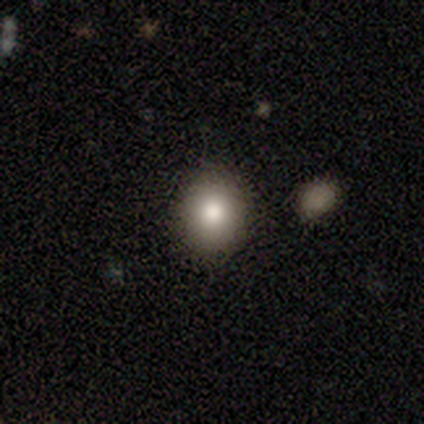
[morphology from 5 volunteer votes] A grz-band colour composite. It shows a smooth galaxy with no disk features (60%) that is round (100%). Merging: none (100%).